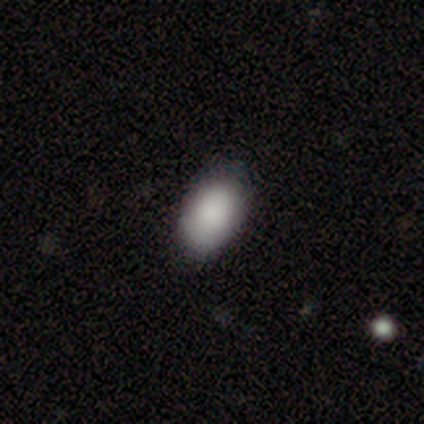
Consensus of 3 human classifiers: Overall: smooth (100%). How rounded: in between (100%). Merging: none (67%; minor disturbance 33%).